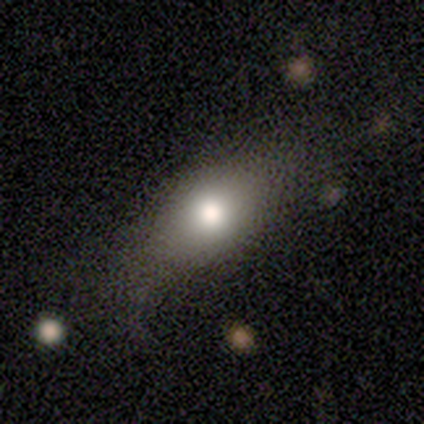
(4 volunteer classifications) smooth_or_featured: smooth (p=0.50) [tied with: star or artifact p=0.50]
how_rounded: round (p=0.50) [tied with: in between p=0.50]
merging: none (p=1.00)